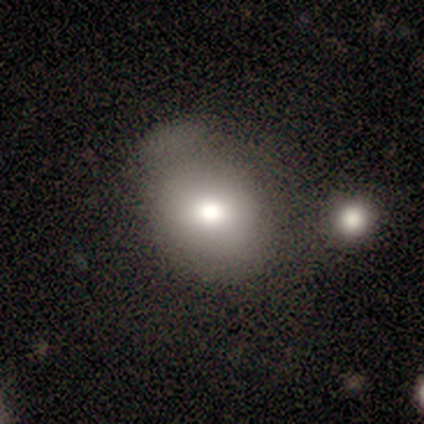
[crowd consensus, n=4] This is possibly a smooth galaxy (50%, tied with featured or disk). How rounded: clearly round (100%). Merging: possibly none (50%, tied with minor disturbance).